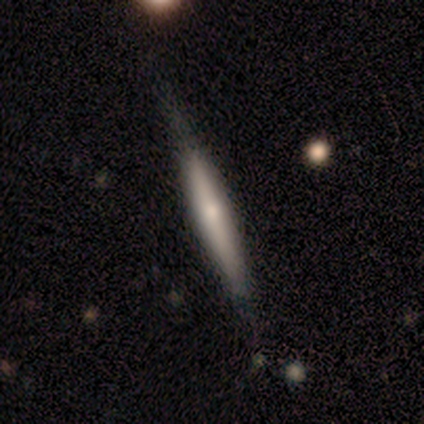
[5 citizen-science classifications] A smooth galaxy with no disk features (40%, tied with featured or disk) that is cigar-shaped (100%).

Vote fractions:
- Smooth or featured? smooth: 40% (tied) / featured or disk: 40% (tied) / star or artifact: 20%
- How rounded? cigar-shaped: 100% / round: 0% / in between: 0%
- Merging? none: 100% / minor disturbance: 0% / major disturbance: 0% / merger: 0%